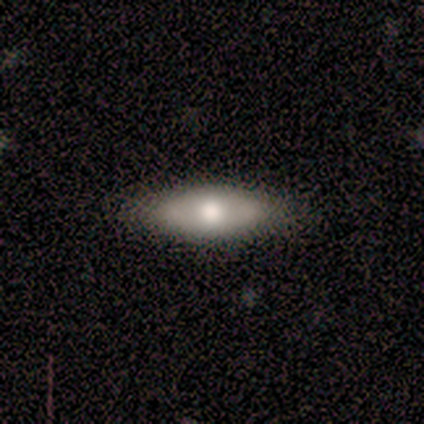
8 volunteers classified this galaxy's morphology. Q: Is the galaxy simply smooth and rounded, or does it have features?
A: smooth — 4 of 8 (50%, tied with featured or disk).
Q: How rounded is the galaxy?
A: in between — 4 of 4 (100%).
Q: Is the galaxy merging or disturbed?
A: none — 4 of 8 (50%).